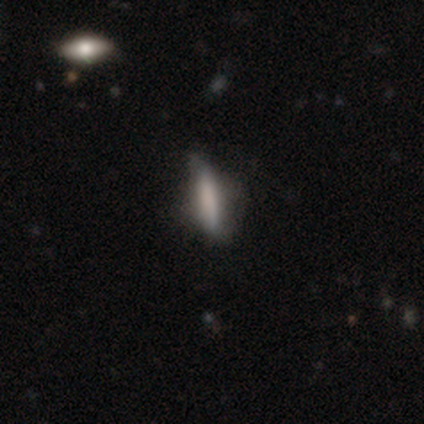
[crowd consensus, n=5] Q: Smooth or featured?
A: smooth (100%)
Q: How rounded?
A: cigar-shaped (80%); runner-up: in between (20%)
Q: Merging?
A: none (80%); runner-up: minor disturbance (20%)